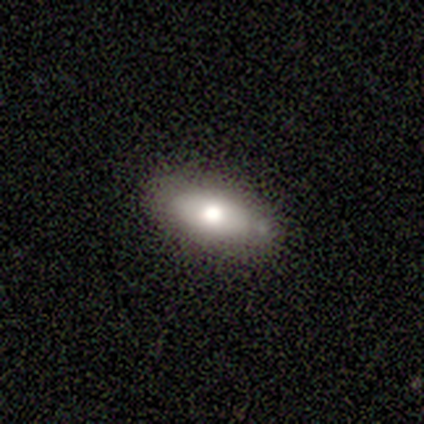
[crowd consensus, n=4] smooth-or-featured: smooth: 100% | featured or disk: 0% | star or artifact: 0%
  how-rounded: in between: 100% | round: 0% | cigar-shaped: 0%
  merging: none: 50% (tied) | minor disturbance: 50% (tied) | major disturbance: 0% | merger: 0%